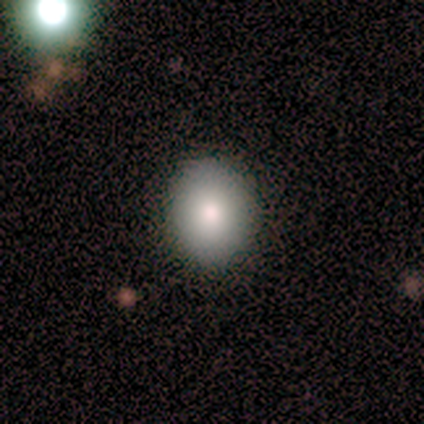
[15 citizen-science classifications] Smooth or featured? smooth (67%)
How rounded? round (50%, tied with in between)
Merging? none (92%)